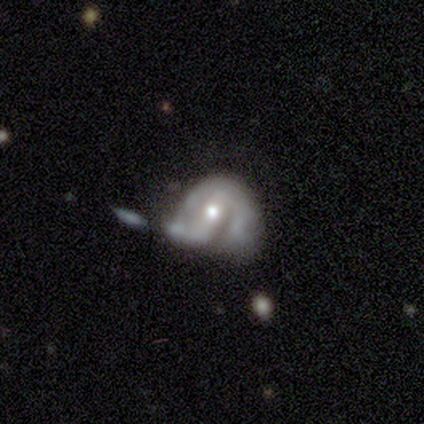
Morphology: type=featured or disk (100%); edge-on=no (100%); bar=strong (50%, tied with no); spiral arms=yes (75%); winding=loose (67%); arm count=1 (33%, tied with 2 and can't tell); bulge=moderate (50%, tied with small); merging=minor disturbance (50%).